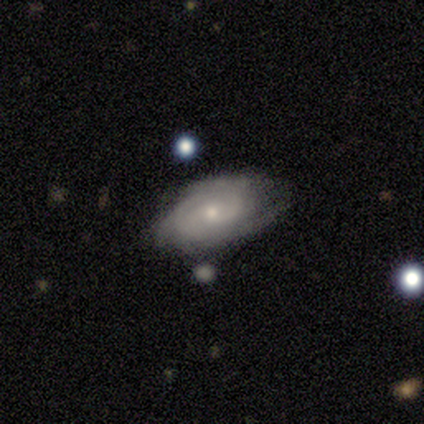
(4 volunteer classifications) This appears to be a smooth galaxy with no disk features (50%, tied with featured or disk) that is in between round and cigar-shaped (100%). Merging: none (75%).